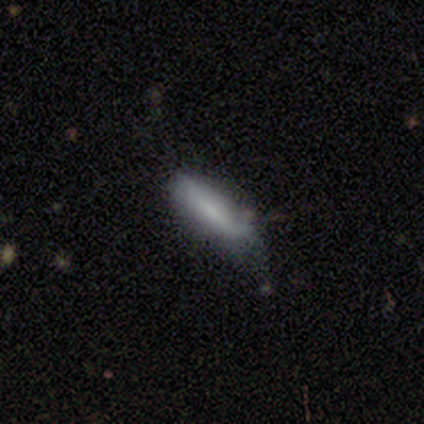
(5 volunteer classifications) Smooth or featured? smooth (40%, tied with featured or disk)
How rounded? cigar-shaped (100%)
Merging? none (50%, tied with minor disturbance)